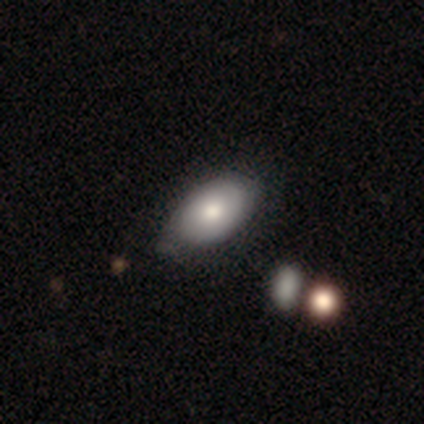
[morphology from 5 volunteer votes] Smooth or featured? smooth (60%)
How rounded? in between (100%)
Merging? minor disturbance (60%)